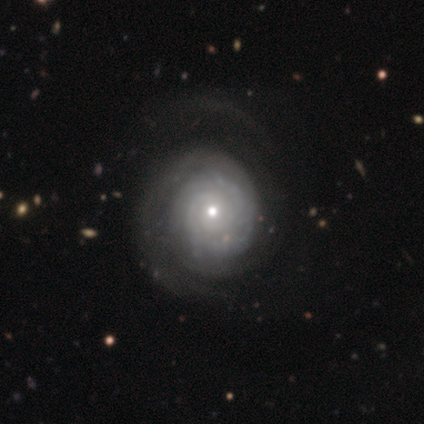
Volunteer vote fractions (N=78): Smooth or featured?
  - featured or disk: 90% *
  - smooth: 5%
  - star or artifact: 5%
Edge-on disk?
  - no: 97% *
  - yes: 3%
Bar?
  - no: 90% *
  - weak: 6%
  - strong: 4%
Spiral arms?
  - yes: 96% *
  - no: 4%
Spiral winding?
  - tight: 74% *
  - medium: 15%
  - loose: 11%
Spiral arm count?
  - can't tell: 42% *
  - 2: 38%
  - 3: 11%
  - more than 4: 5%
  - 1: 3%
  - 4: 2%
Bulge size?
  - small: 60% *
  - moderate: 34%
  - large: 3%
  - dominant: 1%
  - none: 1%
Merging?
  - none: 24% *
  - minor disturbance: 12%
  - major disturbance: 12%
  - merger: 3%